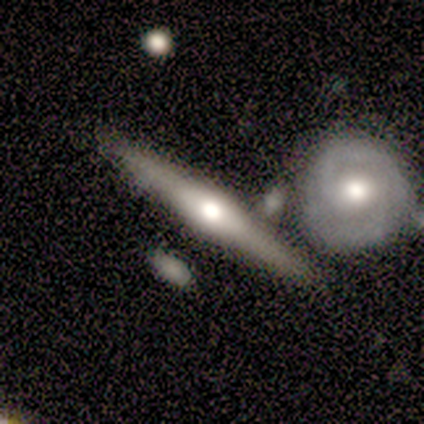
Volunteers were most divided on "merging": none: 50%, minor disturbance: 25%, major disturbance: 25%, merger: 0%. More confident: smooth or featured — featured or disk (100%); edge-on disk — yes (100%); edge-on bulge — rounded (100%).